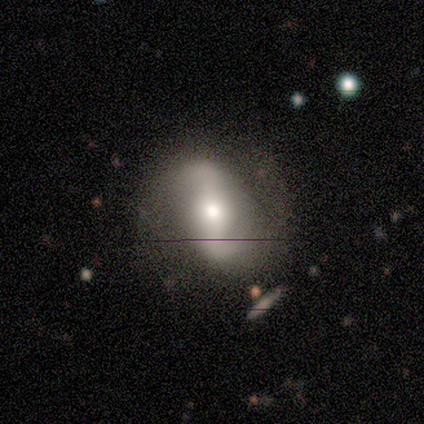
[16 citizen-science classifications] This is clearly a featured or disk galaxy (81%). It is clearly not viewed edge-on (100%). Bar: possibly strong (46%). Spiral arm pattern: clearly yes (92%). Spiral arm count: clearly 2 (100%). Spiral winding: possibly loose (58%). Central bulge: likely moderate (77%). Merging: clearly none (87%).